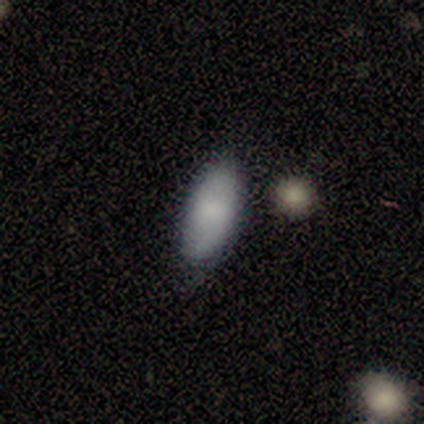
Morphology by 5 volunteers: Smooth or featured? smooth (80%)
How rounded? in between (100%)
Merging? none (80%)